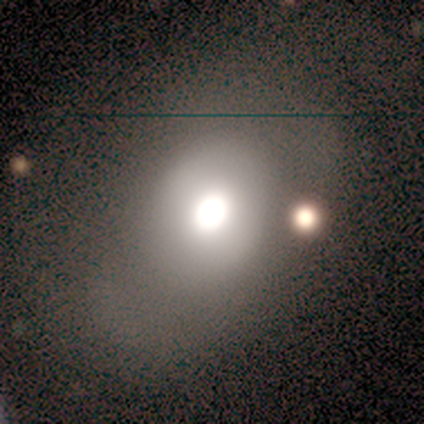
smooth-or-featured: smooth: 50% | featured or disk: 33% | star or artifact: 17%
  how-rounded: in between: 67% | round: 33% | cigar-shaped: 0%
  merging: none: 70% | minor disturbance: 10% | major disturbance: 10% | merger: 10%